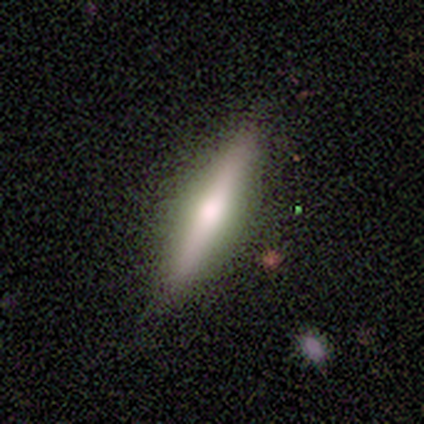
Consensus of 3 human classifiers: Smooth or featured? 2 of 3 (67%) said featured or disk. Edge-on disk? 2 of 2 (100%) said yes. Edge-on bulge? 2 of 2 (100%) said rounded. Merging? 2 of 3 (67%) said none.